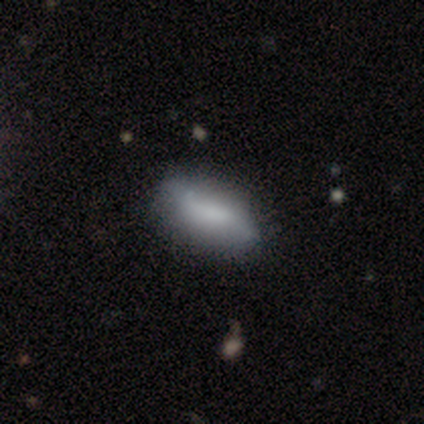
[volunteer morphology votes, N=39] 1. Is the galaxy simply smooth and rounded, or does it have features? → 51% featured or disk, 49% smooth, 0% star or artifact.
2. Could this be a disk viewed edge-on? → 95% no, 5% yes.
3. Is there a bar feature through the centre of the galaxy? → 42% no, 32% weak, 26% strong.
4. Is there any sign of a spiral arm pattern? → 79% yes, 21% no.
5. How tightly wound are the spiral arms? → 80% loose, 13% tight, 7% medium.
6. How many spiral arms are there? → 73% 2, 13% 1, 13% can't tell, 0% 3, 0% 4, 0% more than 4.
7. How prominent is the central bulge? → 47% none, 21% moderate, 16% large, 16% small, 0% dominant.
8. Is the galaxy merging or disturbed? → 64% none, 8% minor disturbance, 5% merger, 3% major disturbance.